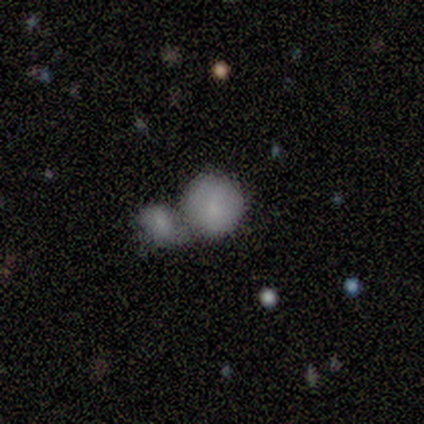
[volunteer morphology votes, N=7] Smooth or featured? 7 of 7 (100%) said smooth. How rounded? 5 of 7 (71%) said round. Merging? 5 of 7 (71%) said merger.